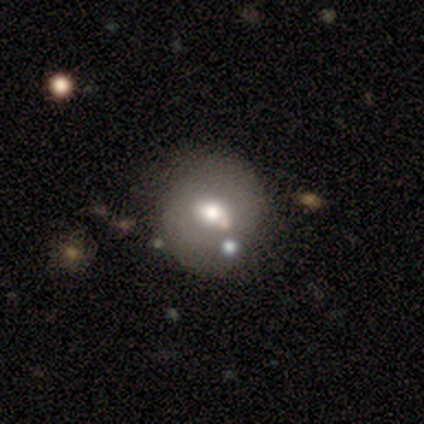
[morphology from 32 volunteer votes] Q: Smooth or featured?
A: smooth (69%); runner-up: featured or disk (25%)
Q: How rounded?
A: round (77%); runner-up: in between (23%)
Q: Merging?
A: none (80%); runner-up: merger (10%)